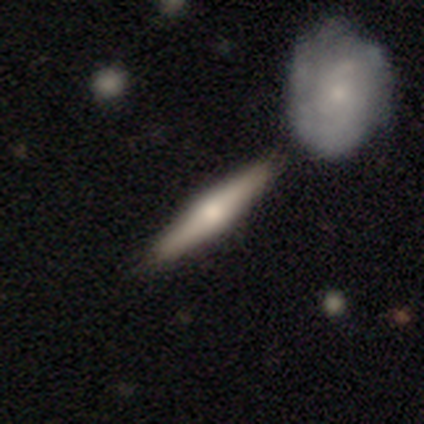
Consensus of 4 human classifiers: Morphology: type=smooth (50%, tied with featured or disk); roundness=cigar-shaped (100%); merging=none (100%).